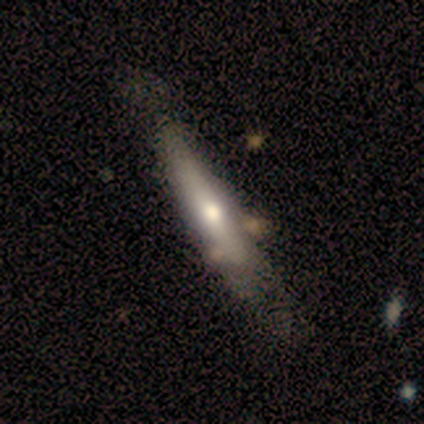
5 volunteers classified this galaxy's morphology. This is likely a featured or disk galaxy (60%). It is clearly viewed edge-on (100%). Edge-on bulge: likely rounded (67%). Merging: possibly none (50%).